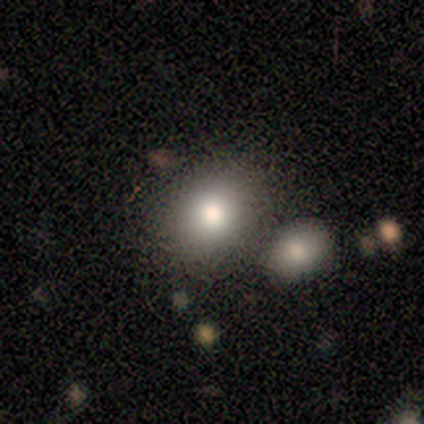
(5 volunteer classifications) smooth 60%, featured or disk 40%, star or artifact 0%. Down the decision tree: how rounded — round (100%); merging — none (60%).